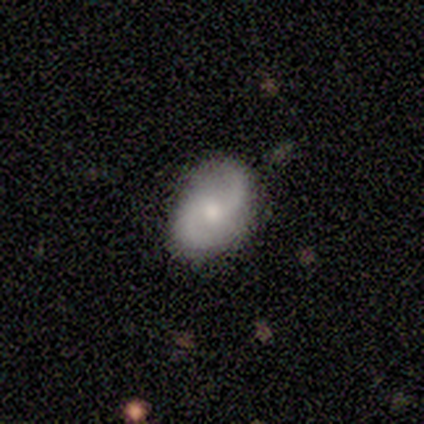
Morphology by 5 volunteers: Q: Smooth or featured?
A: featured or disk (100%)
Q: Edge-on disk?
A: no (100%)
Q: Bar?
A: no (80%); runner-up: weak (20%)
Q: Spiral arms?
A: yes (100%)
Q: Spiral winding?
A: medium (60%); runner-up: loose (40%)
Q: Spiral arm count?
A: 2 (80%); runner-up: can't tell (20%)
Q: Bulge size?
A: moderate (60%); runner-up: large (20%)
Q: Merging?
A: none (80%); runner-up: minor disturbance (20%)